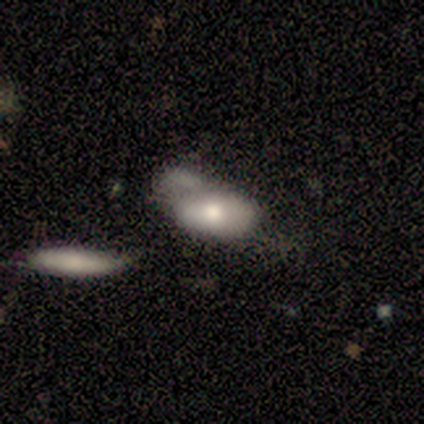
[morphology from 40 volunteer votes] Overall: smooth (72%). How rounded: in between (97%). Merging: merger (41%; minor disturbance 21%).